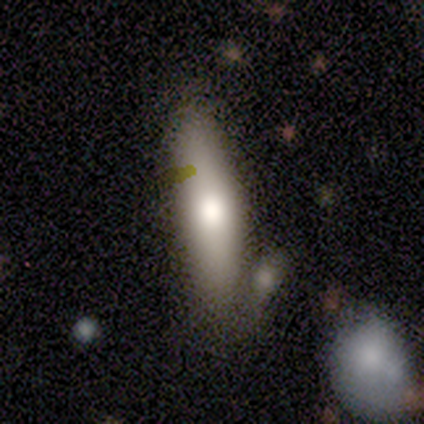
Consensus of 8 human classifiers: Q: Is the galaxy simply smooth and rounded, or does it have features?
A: smooth — 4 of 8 (50%).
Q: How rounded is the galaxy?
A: cigar-shaped — 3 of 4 (75%).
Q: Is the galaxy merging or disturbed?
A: none — 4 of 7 (57%).